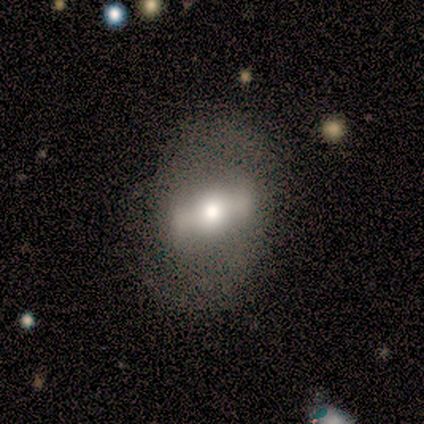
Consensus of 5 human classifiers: Morphology: type=featured or disk (60%); edge-on=no (67%); bar=strong (100%); spiral arms=no (100%); bulge=moderate (50%, tied with small); merging=none (100%).